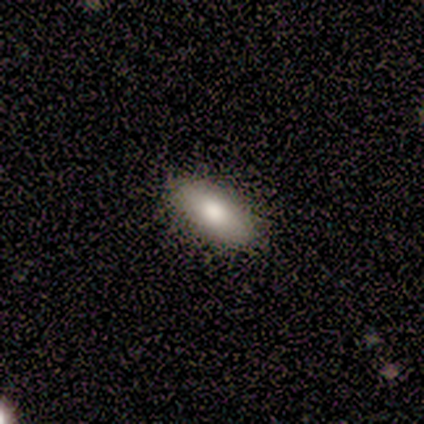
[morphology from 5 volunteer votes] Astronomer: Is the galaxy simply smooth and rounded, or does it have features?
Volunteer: smooth — 60%.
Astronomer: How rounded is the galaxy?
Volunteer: in between — 100%.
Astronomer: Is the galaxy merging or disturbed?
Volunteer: none — 75%.